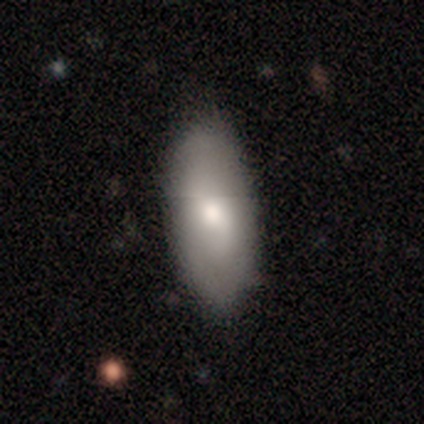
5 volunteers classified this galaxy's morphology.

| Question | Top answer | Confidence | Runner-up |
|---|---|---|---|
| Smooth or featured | smooth | 60% | star or artifact (40%) |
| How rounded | in between | 100% | — |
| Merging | none | 100% | — |